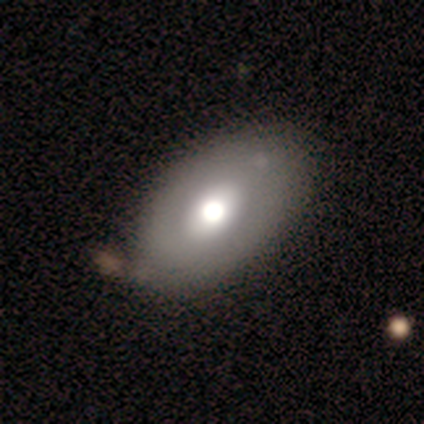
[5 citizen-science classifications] smooth 60%, featured or disk 40%, star or artifact 0%. Down the decision tree: how rounded — in between (67%); merging — none (60%).